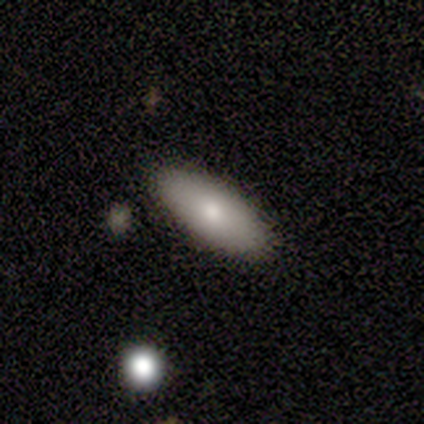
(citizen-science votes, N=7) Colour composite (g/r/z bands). It shows a smooth galaxy with no disk features (43%, tied with featured or disk) that is in between round and cigar-shaped (67%). Merging: none (83%).